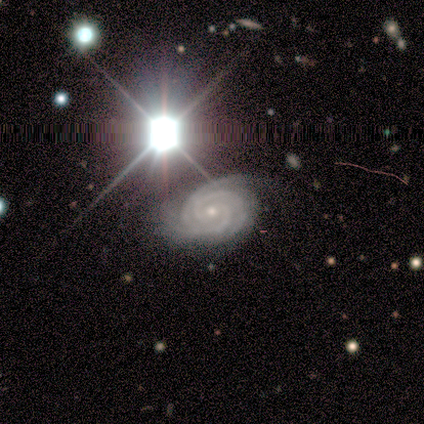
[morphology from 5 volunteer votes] smooth_or_featured: featured or disk (p=0.60) [alt: smooth p=0.20]
disk_edge_on: no (p=1.00)
bar: no (p=0.67) [alt: weak p=0.33]
has_spiral_arms: yes (p=1.00)
spiral_winding: tight (p=1.00)
spiral_arm_count: 3 (p=0.67) [alt: 4 p=0.33]
bulge_size: small (p=1.00)
merging: none (p=0.50) [alt: minor disturbance p=0.25]